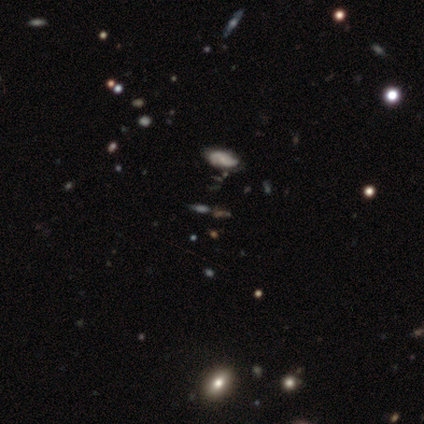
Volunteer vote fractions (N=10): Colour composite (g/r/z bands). It shows a smooth galaxy with no disk features (60%) that is in between round and cigar-shaped (100%). Merging: none (88%).